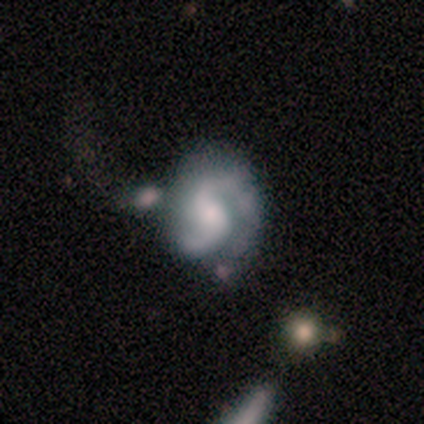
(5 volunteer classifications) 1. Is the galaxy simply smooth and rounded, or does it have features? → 60% featured or disk, 40% star or artifact, 0% smooth.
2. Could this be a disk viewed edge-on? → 100% no, 0% yes.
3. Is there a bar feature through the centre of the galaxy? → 67% strong, 33% weak, 0% no.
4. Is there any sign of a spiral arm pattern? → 100% yes, 0% no.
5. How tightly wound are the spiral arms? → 67% tight, 33% loose, 0% medium.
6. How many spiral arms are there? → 100% 2, 0% 1, 0% 3, 0% 4, 0% more than 4, 0% can't tell.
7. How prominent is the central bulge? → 67% moderate, 33% small, 0% dominant, 0% large, 0% none.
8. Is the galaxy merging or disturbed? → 67% none, 33% minor disturbance, 0% major disturbance, 0% merger.